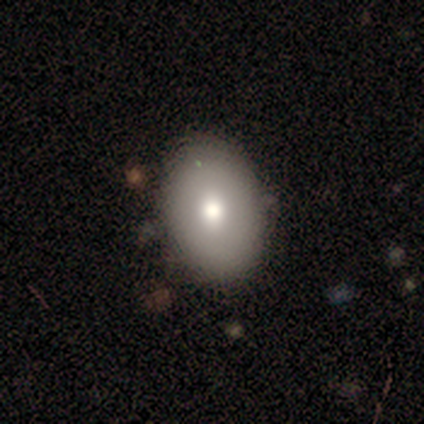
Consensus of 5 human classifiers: Smooth or featured? featured or disk (80%)
Edge-on disk? no (100%)
Bar? no (100%)
Spiral arms? no (100%)
Bulge size? moderate (75%)
Merging? none (100%)